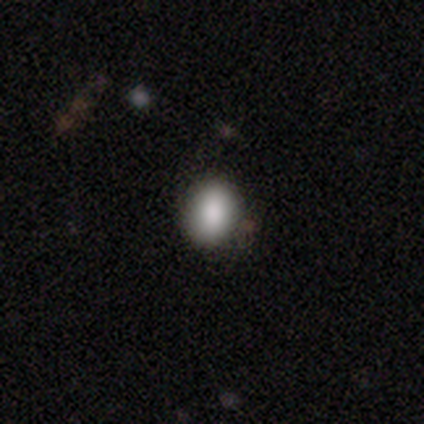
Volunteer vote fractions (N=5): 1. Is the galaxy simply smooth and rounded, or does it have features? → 80% smooth, 20% star or artifact, 0% featured or disk.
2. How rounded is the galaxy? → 100% in between, 0% round, 0% cigar-shaped.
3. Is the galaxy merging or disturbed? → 75% none, 25% major disturbance, 0% minor disturbance, 0% merger.